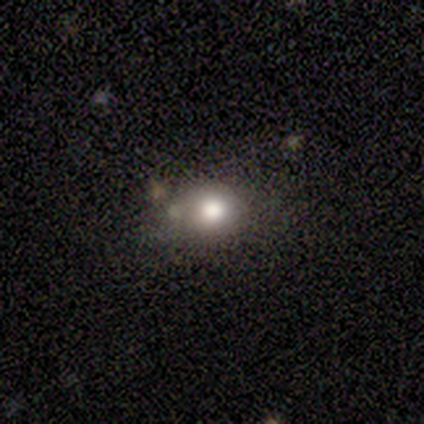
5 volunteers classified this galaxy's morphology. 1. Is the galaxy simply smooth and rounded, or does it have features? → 60% smooth, 20% featured or disk, 20% star or artifact.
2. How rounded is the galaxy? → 67% round, 33% in between, 0% cigar-shaped.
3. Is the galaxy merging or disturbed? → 75% none, 25% minor disturbance, 0% major disturbance, 0% merger.